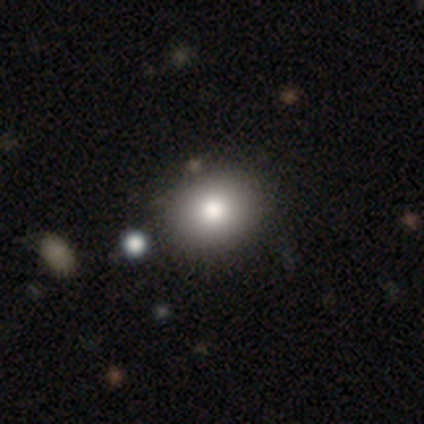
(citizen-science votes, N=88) A smooth galaxy with no disk features (89%) that is round (60%).

Vote fractions:
- Smooth or featured? smooth: 89% / star or artifact: 7% / featured or disk: 5%
- How rounded? round: 60% / in between: 40% / cigar-shaped: 0%
- Merging? none: 89% / minor disturbance: 7% / major disturbance: 2% / merger: 1%